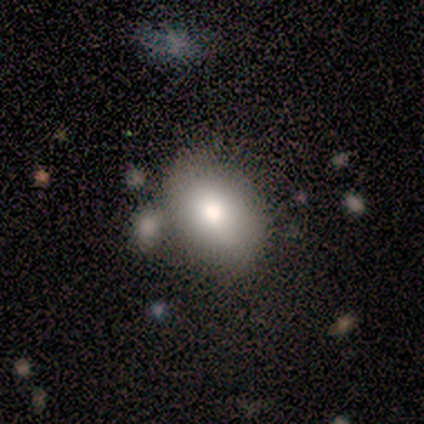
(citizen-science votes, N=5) Q: Smooth or featured?
A: smooth (80%); runner-up: featured or disk (20%)
Q: How rounded?
A: in between (100%)
Q: Merging?
A: minor disturbance (40%); tied with: merger (40%)